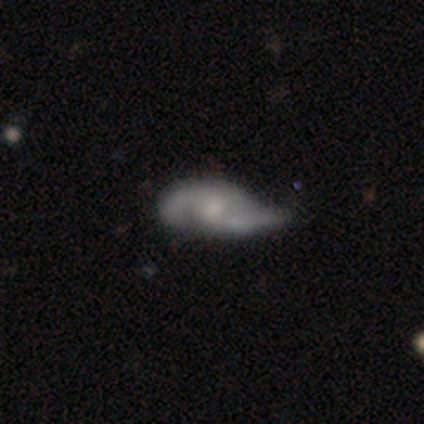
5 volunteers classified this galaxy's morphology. type=featured or disk (80%); edge-on=no (100%); bar=weak (50%, tied with no); spiral arms=yes (100%); winding=medium (50%, tied with loose); arm count=2 (100%); bulge=moderate (50%, tied with small); merging=none (40%, tied with minor disturbance).